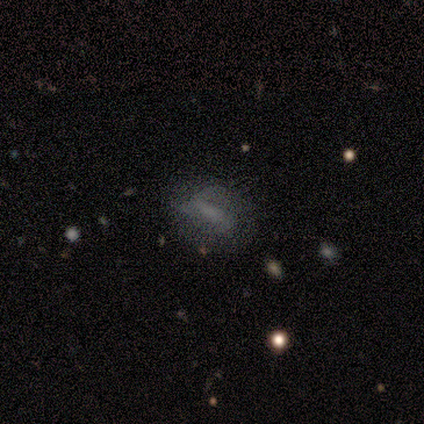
Smooth or featured?
  - featured or disk: 75% *
  - smooth: 25%
  - star or artifact: 0%
Edge-on disk?
  - no: 67% *
  - yes: 33%
Bar?
  - no: 100% *
  - strong: 0%
  - weak: 0%
Spiral arms?
  - no: 100% *
  - yes: 0%
Bulge size?
  - small: 50% * (tied)
  - none: 50% * (tied)
  - dominant: 0%
  - large: 0%
  - moderate: 0%
Merging?
  - none: 75% *
  - major disturbance: 25%
  - minor disturbance: 0%
  - merger: 0%